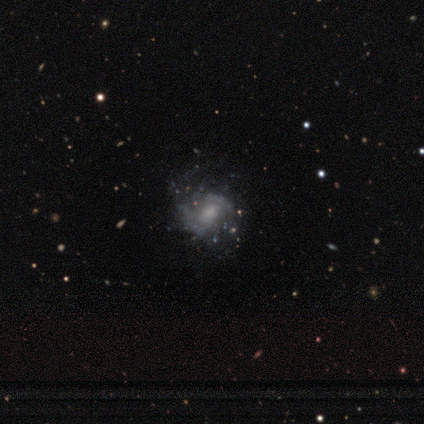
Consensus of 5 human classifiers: This appears to be a smooth galaxy with no disk features (60%) that is round (67%). Merging: none (80%).